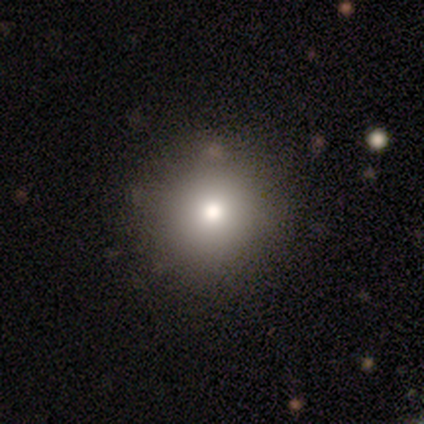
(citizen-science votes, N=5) This appears to be a smooth galaxy with no disk features (60%) that is round (100%). Merging: none (100%).